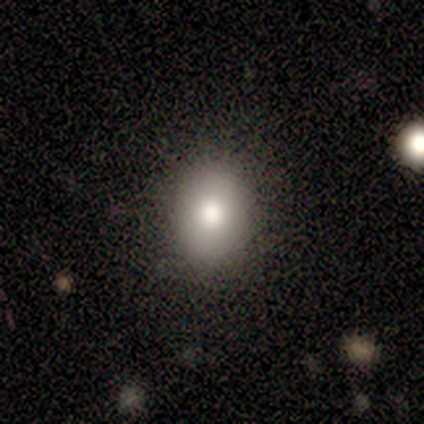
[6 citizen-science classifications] Smooth or featured? 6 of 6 (100%) said smooth. How rounded? 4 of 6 (67%) said in between. Merging? 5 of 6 (83%) said none.